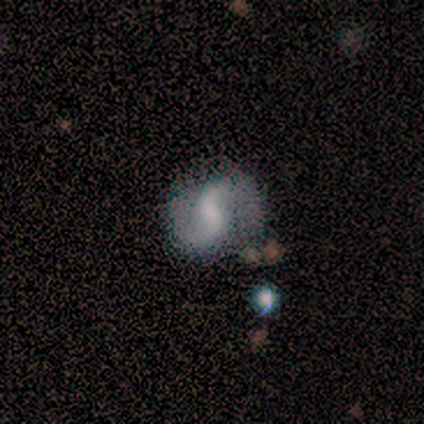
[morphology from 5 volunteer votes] Smooth or featured? featured or disk (100%)
Edge-on disk? no (100%)
Bar? no (60%)
Spiral arms? yes (80%)
Spiral winding? medium (50%)
Spiral arm count? 2 (100%)
Bulge size? small (60%)
Merging? none (80%)